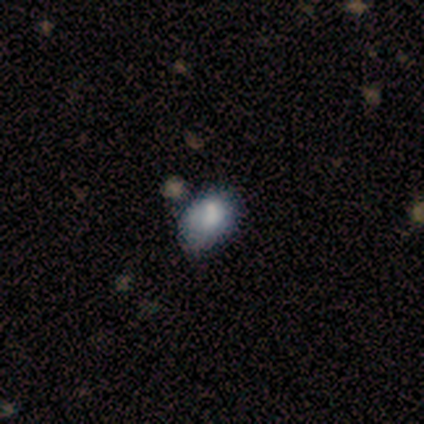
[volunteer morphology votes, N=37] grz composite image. It shows a smooth galaxy with no disk features (70%) that is in between round and cigar-shaped (85%). Merging: none (66%).